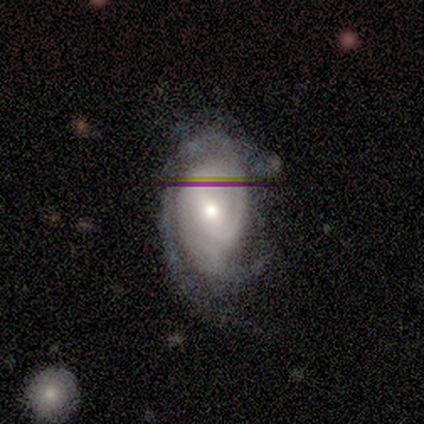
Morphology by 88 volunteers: A featured or disk galaxy (85%) with a weak bar (39%), 2 (48%) tight (67%) spiral arms (93%) and a moderate central bulge (62%). Merging: none (52%).